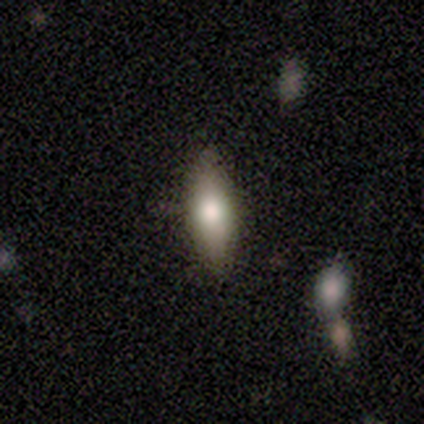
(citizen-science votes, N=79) Smooth or featured: smooth — 71% (featured or disk — 22%)
How rounded: in between — 73% (cigar-shaped — 25%)
Merging: none — 47% (minor disturbance — 8%)